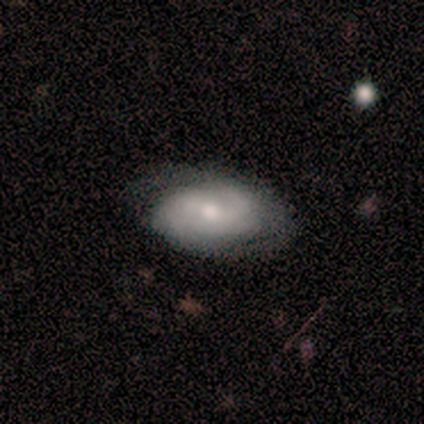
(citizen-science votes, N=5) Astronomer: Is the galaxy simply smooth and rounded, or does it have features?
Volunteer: smooth — 60% (runner-up: featured or disk, 40%).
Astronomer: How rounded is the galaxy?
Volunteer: in between — 100%.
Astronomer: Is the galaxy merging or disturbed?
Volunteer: none — 100%.